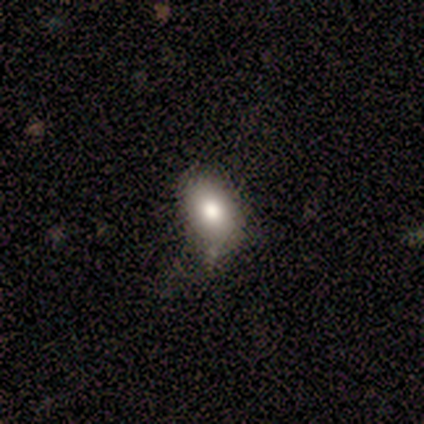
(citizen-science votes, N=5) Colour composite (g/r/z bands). It shows a smooth galaxy with no disk features (100%) that is in between round and cigar-shaped (100%). Merging: none (60%).